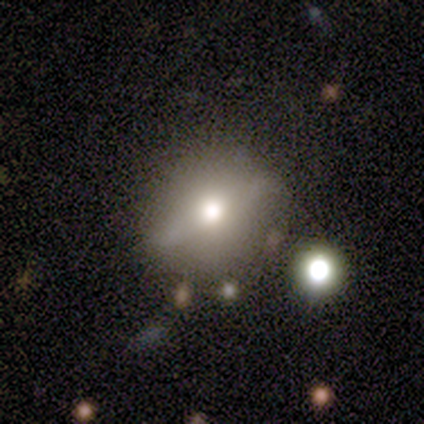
Morphology: type=featured or disk (60%); edge-on=no (67%); bar=weak (50%, tied with no); spiral arms=no (100%); bulge=moderate (50%, tied with small); merging=none (60%).